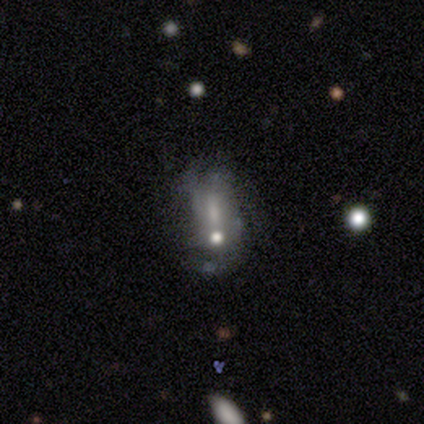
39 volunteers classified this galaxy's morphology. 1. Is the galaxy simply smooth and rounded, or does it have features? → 54% featured or disk, 36% smooth, 10% star or artifact.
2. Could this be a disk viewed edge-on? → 90% no, 10% yes.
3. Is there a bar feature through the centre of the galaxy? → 74% no, 21% weak, 5% strong.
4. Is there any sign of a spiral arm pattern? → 63% no, 37% yes.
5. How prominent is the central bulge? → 42% moderate (tied), 42% small (tied), 16% none, 0% dominant, 0% large.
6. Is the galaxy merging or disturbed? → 46% none, 29% merger, 14% minor disturbance, 11% major disturbance.